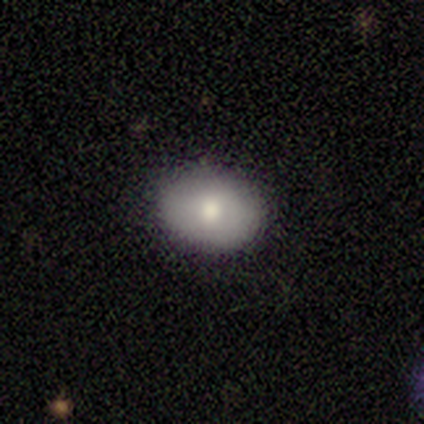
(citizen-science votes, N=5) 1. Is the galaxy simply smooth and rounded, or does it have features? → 80% smooth, 20% featured or disk, 0% star or artifact.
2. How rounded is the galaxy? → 75% in between, 25% round, 0% cigar-shaped.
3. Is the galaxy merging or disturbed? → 100% none, 0% minor disturbance, 0% major disturbance, 0% merger.